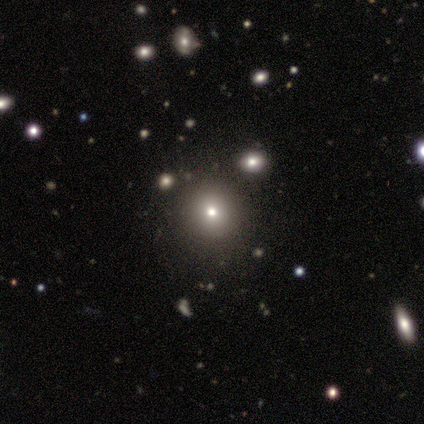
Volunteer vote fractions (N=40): This is likely a smooth galaxy (60%). How rounded: clearly round (100%). Merging: clearly none (93%).